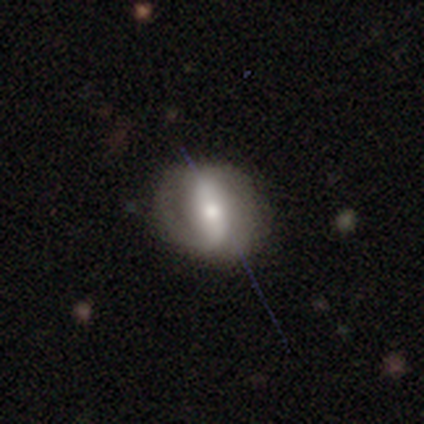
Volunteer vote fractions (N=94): A featured or disk galaxy (65%) with a strong bar (51%), 2 (80%) tight (40%) spiral arms (70%) and a moderate central bulge (54%).

Vote fractions:
- Smooth or featured? featured or disk: 65% / smooth: 29% / star or artifact: 6%
- Edge-on disk? no: 93% / yes: 7%
- Bar? strong: 51% / weak: 25% / no: 25%
- Spiral arms? yes: 70% / no: 30%
- Spiral winding? tight: 40% / loose: 32% / medium: 28%
- Spiral arm count? 2: 80% / can't tell: 12% / 1: 8% / 3: 0% / 4: 0% / more than 4: 0%
- Bulge size? moderate: 54% / small: 37% / large: 5% / none: 4% / dominant: 0%
- Merging? none: 77% / minor disturbance: 17% / major disturbance: 3% / merger: 2%